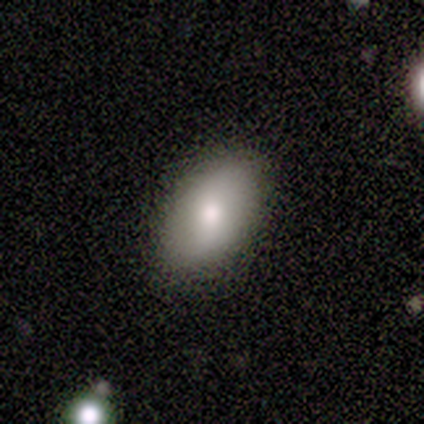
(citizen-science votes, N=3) This appears to be a smooth galaxy with no disk features (67%) that is in between round and cigar-shaped (100%). Merging: none (100%).